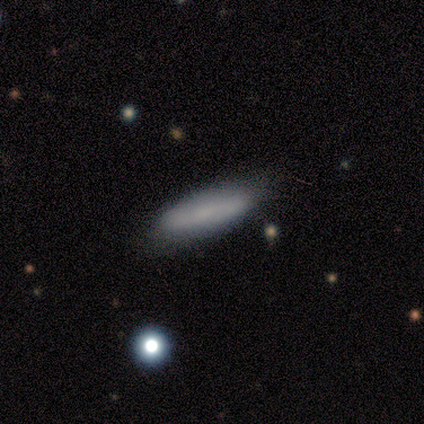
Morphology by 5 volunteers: smooth 80%, featured or disk 20%, star or artifact 0%. Down the decision tree: how rounded — in between (50%, tied with cigar-shaped); merging — none (60%).